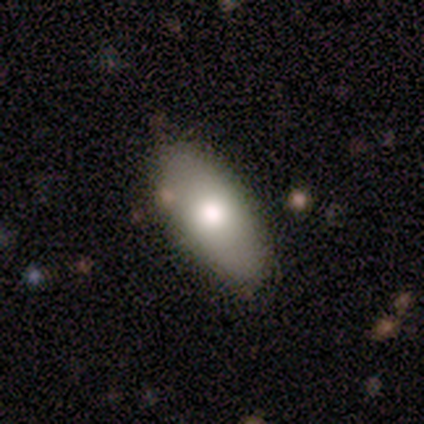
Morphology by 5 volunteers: This is clearly a smooth galaxy (80%). How rounded: clearly in between (100%). Merging: clearly none (100%).